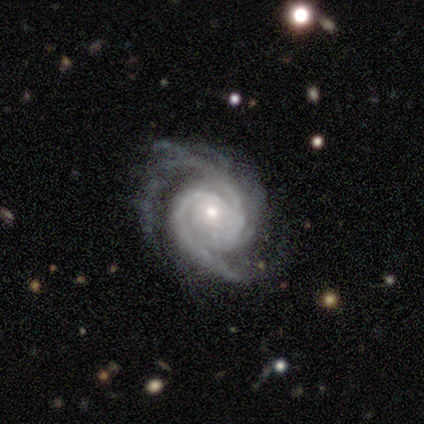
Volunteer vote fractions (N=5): Q: Smooth or featured?
A: featured or disk (100%)
Q: Edge-on disk?
A: no (100%)
Q: Bar?
A: no (80%); runner-up: weak (20%)
Q: Spiral arms?
A: yes (100%)
Q: Spiral winding?
A: tight (60%); runner-up: medium (20%)
Q: Spiral arm count?
A: 2 (80%); runner-up: 4 (20%)
Q: Bulge size?
A: small (60%); runner-up: moderate (40%)
Q: Merging?
A: none (80%); runner-up: major disturbance (20%)